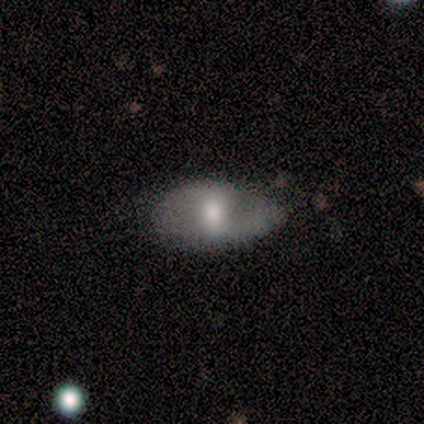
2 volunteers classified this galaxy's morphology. Smooth or featured? 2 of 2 (100%) said smooth. How rounded? 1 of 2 (50%, tied with cigar-shaped) said in between. Merging? 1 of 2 (50%, tied with minor disturbance) said none.